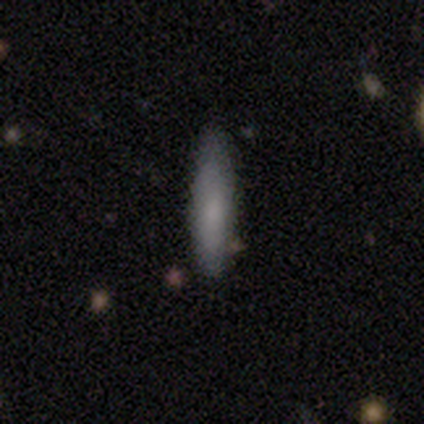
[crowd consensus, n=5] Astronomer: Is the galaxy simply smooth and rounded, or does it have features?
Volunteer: featured or disk — 60% (runner-up: smooth, 40%).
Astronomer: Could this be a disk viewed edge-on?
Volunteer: no — 67%.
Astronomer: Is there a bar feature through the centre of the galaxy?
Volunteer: no — 100%.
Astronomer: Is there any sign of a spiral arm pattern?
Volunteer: no — 100%.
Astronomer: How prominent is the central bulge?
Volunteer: small — 50%, tied with none at 50%.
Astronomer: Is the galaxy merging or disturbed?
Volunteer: none — 100%.